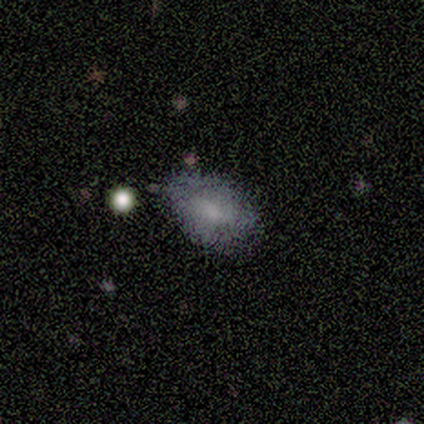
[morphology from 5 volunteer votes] Smooth or featured? 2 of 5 (40%, tied with star or artifact) said smooth. How rounded? 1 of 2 (50%, tied with in between) said round. Merging? 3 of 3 (100%) said none.